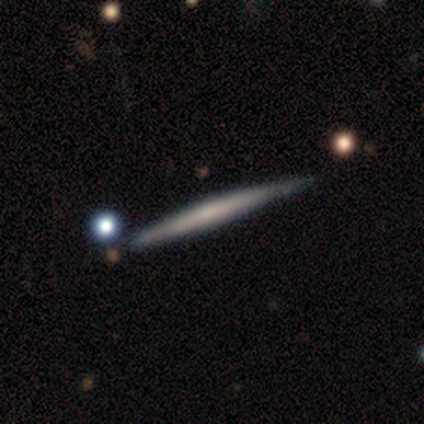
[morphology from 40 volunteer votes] smooth_or_featured: featured or disk (p=0.68) [alt: smooth p=0.25]
disk_edge_on: yes (p=0.96) [alt: no p=0.04]
edge_on_bulge: none (p=0.65) [alt: boxy p=0.23]
merging: none (p=0.49) [alt: minor disturbance p=0.03]